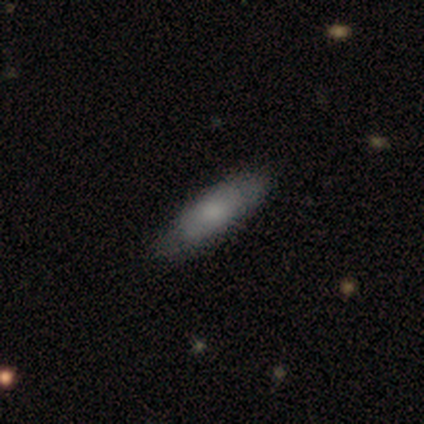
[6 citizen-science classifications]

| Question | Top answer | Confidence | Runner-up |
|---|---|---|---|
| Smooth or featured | featured or disk | 67% | smooth (33%) |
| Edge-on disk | no | 75% | yes (25%) |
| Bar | no | 67% | strong (33%) |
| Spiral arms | no | 67% | yes (33%) |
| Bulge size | moderate | 33% | tied: small (33%), none (33%) |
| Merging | none | 83% | minor disturbance (17%) |